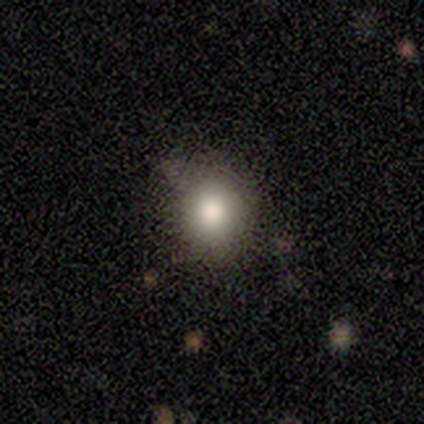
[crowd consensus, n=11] Volunteers were most divided on "how rounded": round: 71%, in between: 29%, cigar-shaped: 0%. More confident: merging — none (78%); smooth or featured — smooth (64%).